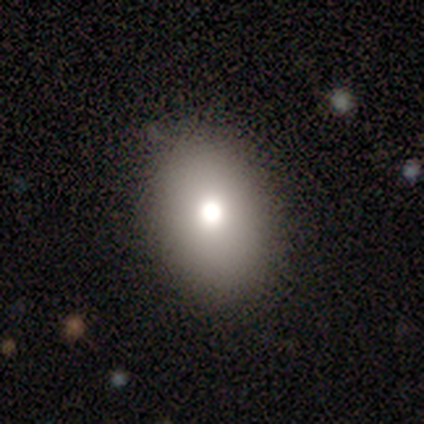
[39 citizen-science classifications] A smooth galaxy with no disk features (79%) that is in between round and cigar-shaped (84%).

Vote fractions:
- Smooth or featured? smooth: 79% / featured or disk: 13% / star or artifact: 8%
- How rounded? in between: 84% / round: 16% / cigar-shaped: 0%
- Merging? none: 92% / minor disturbance: 6% / major disturbance: 3% / merger: 0%